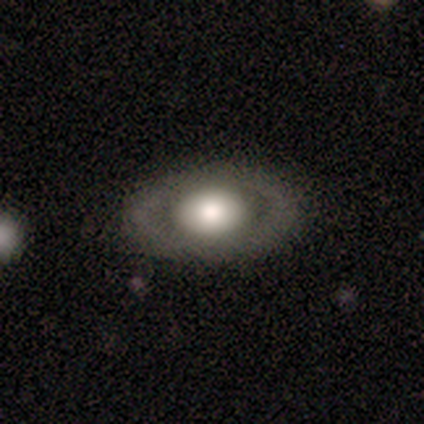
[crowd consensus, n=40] smooth_or_featured: smooth (p=0.53) [alt: featured or disk p=0.45]
how_rounded: in between (p=0.86) [alt: round p=0.14]
merging: none (p=0.85) [alt: minor disturbance p=0.13]